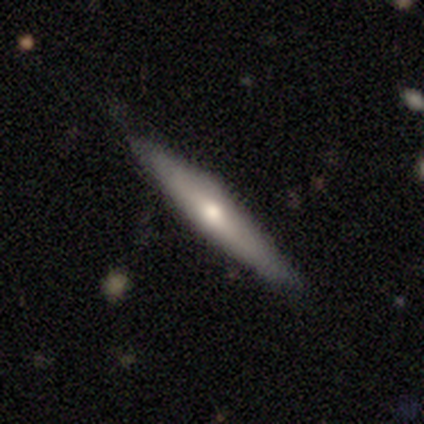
Volunteers were most divided on "smooth or featured": smooth: 60%, featured or disk: 40%, star or artifact: 0%. More confident: how rounded — cigar-shaped (67%); merging — none (60%).